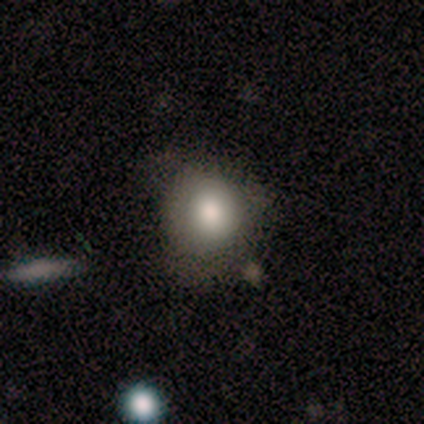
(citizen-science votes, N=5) Smooth or featured? 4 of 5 (80%) said smooth. How rounded? 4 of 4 (100%) said round. Merging? 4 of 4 (100%) said none.